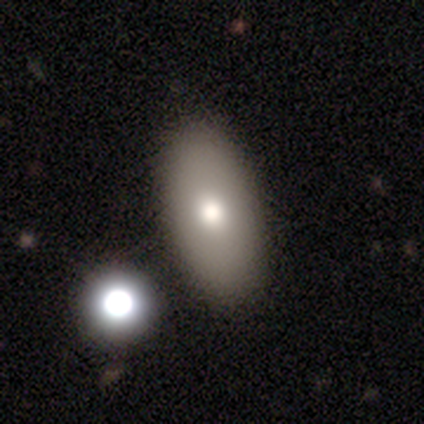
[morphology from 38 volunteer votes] Smooth or featured?
  - smooth: 79% *
  - featured or disk: 18%
  - star or artifact: 3%
How rounded?
  - in between: 90% *
  - cigar-shaped: 10%
  - round: 0%
Merging?
  - none: 51% *
  - merger: 8%
  - minor disturbance: 5%
  - major disturbance: 3%